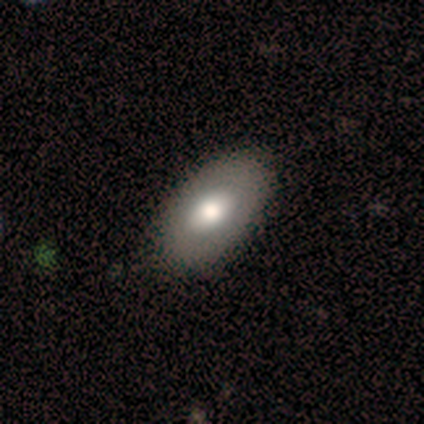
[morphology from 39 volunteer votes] Smooth or featured? 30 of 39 (77%) said smooth. How rounded? 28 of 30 (93%) said in between. Merging? 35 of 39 (90%) said none.